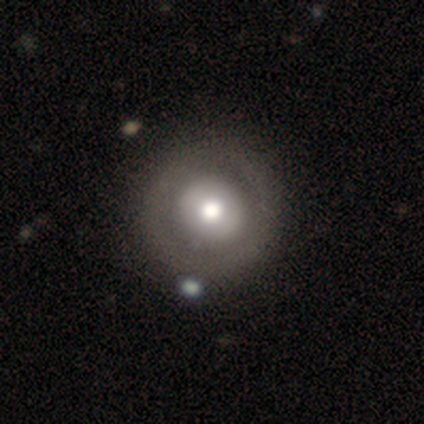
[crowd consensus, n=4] Q: Smooth or featured?
A: featured or disk (75%); runner-up: smooth (25%)
Q: Edge-on disk?
A: no (100%)
Q: Bar?
A: no (100%)
Q: Spiral arms?
A: no (100%)
Q: Bulge size?
A: moderate (100%)
Q: Merging?
A: none (100%)